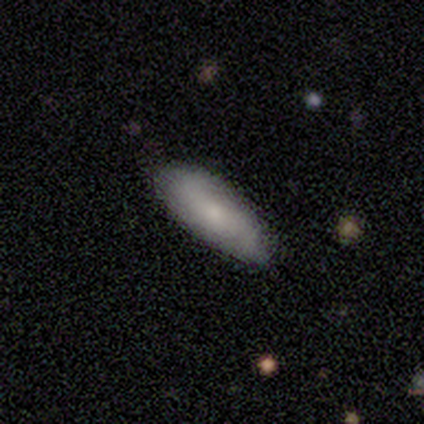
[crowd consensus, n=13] Smooth or featured? 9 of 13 (69%) said smooth. How rounded? 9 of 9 (100%) said in between. Merging? 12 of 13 (92%) said none.